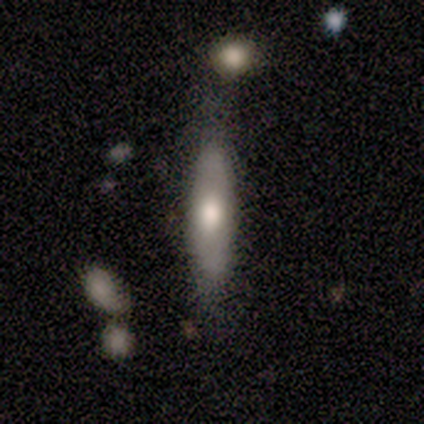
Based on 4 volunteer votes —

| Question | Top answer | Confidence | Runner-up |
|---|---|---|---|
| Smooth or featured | smooth | 50% | tied: featured or disk (50%) |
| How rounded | cigar-shaped | 100% | — |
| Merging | none | 100% | — |